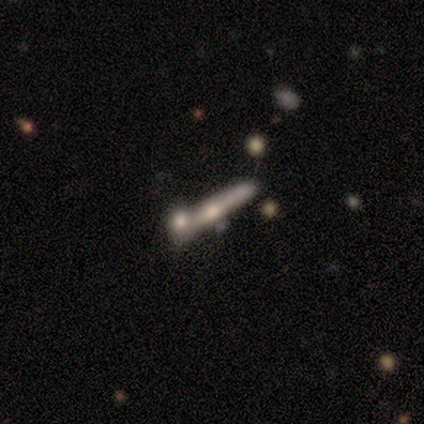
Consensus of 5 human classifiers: smooth-or-featured: featured or disk: 80% | smooth: 20% | star or artifact: 0%
  disk-edge-on: yes: 100% | no: 0%
    edge-on-bulge: rounded: 75% | none: 25% | boxy: 0%
  merging: none: 40% (tied) | merger: 40% (tied) | minor disturbance: 20% | major disturbance: 0%